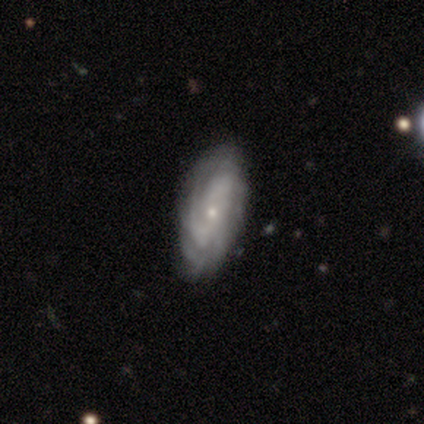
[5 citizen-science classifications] Morphology: type=featured or disk (60%); edge-on=no (100%); bar=no (67%); spiral arms=yes (100%); winding=tight (67%); arm count=can't tell (100%); bulge=small (67%); merging=none (60%).